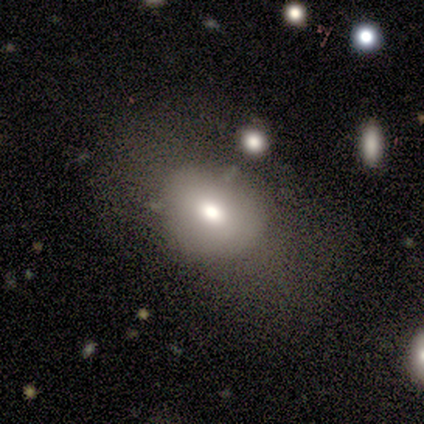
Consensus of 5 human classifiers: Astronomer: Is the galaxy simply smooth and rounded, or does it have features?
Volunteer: smooth — 40%, tied with featured or disk at 40%.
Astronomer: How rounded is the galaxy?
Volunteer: in between — 100%.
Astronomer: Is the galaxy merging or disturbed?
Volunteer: none — 50%.